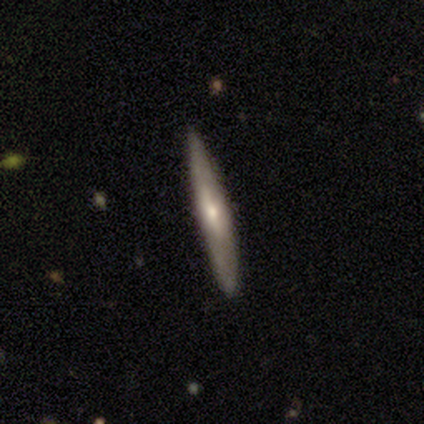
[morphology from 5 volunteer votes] smooth-or-featured: featured or disk: 60% | smooth: 20% | star or artifact: 20%
  disk-edge-on: yes: 67% | no: 33%
    edge-on-bulge: rounded: 100% | boxy: 0% | none: 0%
  merging: none: 75% | minor disturbance: 25% | major disturbance: 0% | merger: 0%